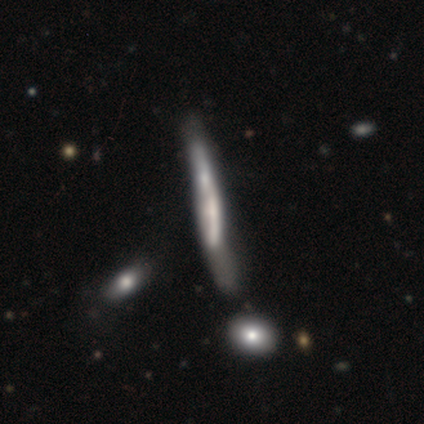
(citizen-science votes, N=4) Smooth or featured? 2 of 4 (50%, tied with featured or disk) said smooth. How rounded? 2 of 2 (100%) said cigar-shaped. Merging? 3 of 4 (75%) said none.